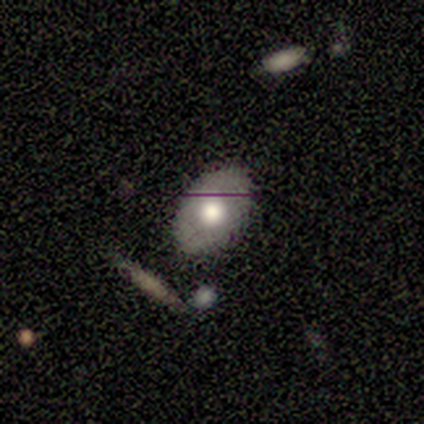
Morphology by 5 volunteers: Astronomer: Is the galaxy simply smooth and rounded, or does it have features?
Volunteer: smooth — 60% (runner-up: featured or disk, 40%).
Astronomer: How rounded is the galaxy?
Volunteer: in between — 100%.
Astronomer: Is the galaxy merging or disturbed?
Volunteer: none — 100%.